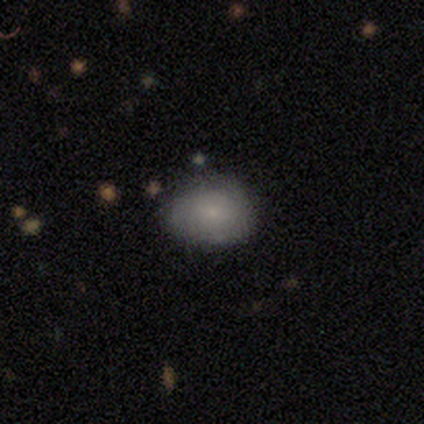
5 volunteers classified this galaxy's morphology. type=smooth (100%); roundness=round (60%); merging=none (100%).